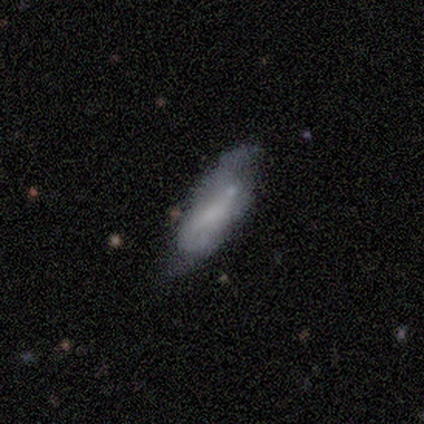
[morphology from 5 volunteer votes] Smooth or featured?
  - featured or disk: 80% *
  - smooth: 20%
  - star or artifact: 0%
Edge-on disk?
  - no: 100% *
  - yes: 0%
Bar?
  - weak: 50% * (tied)
  - no: 50% * (tied)
  - strong: 0%
Spiral arms?
  - yes: 50% * (tied)
  - no: 50% * (tied)
Spiral winding?
  - tight: 50% * (tied)
  - loose: 50% * (tied)
  - medium: 0%
Spiral arm count?
  - 2: 50% * (tied)
  - can't tell: 50% * (tied)
  - 1: 0%
  - 3: 0%
  - 4: 0%
  - more than 4: 0%
Bulge size?
  - small: 50% * (tied)
  - none: 50% * (tied)
  - dominant: 0%
  - large: 0%
  - moderate: 0%
Merging?
  - merger: 40% *
  - none: 20%
  - minor disturbance: 20%
  - major disturbance: 20%